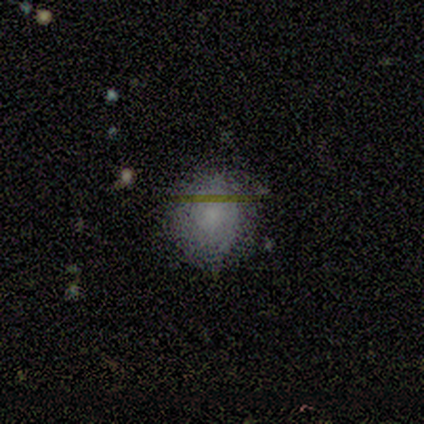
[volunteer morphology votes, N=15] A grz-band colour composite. It shows a smooth galaxy with no disk features (73%) that is round (82%). Merging: none (77%).